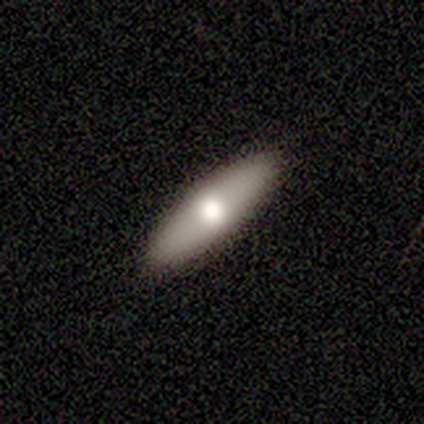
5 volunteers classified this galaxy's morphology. Volunteers were most divided on "edge-on disk": yes: 75%, no: 25%. More confident: edge-on bulge — rounded (100%); merging — none (100%); smooth or featured — featured or disk (80%).